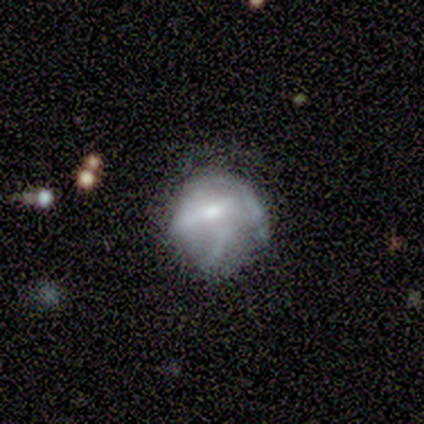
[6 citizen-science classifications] Smooth or featured: featured or disk — 100%
Edge-on disk: no — 100%
Bar: weak — 50% (tied with no — 50%)
Spiral arms: yes — 67% (no — 33%)
Spiral winding: medium — 50% (tight — 25%)
Spiral arm count: 2 — 75% (can't tell — 25%)
Bulge size: moderate — 50% (tied with small — 50%)
Merging: none — 50% (minor disturbance — 33%)